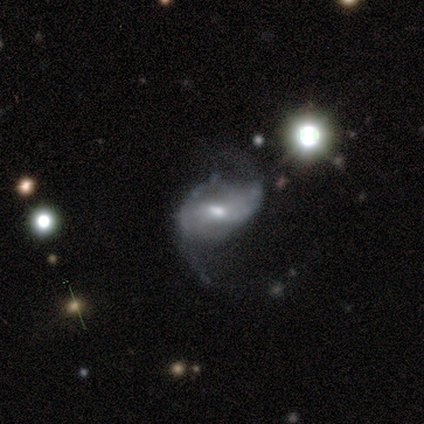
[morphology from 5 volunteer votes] featured or disk 80%, smooth 20%, star or artifact 0%. Down the decision tree: edge-on disk — no (100%); bar — weak (100%); spiral arms — yes (100%); spiral arm count — 2 (100%); spiral winding — loose (75%); bulge size — small (100%); merging — none (60%).